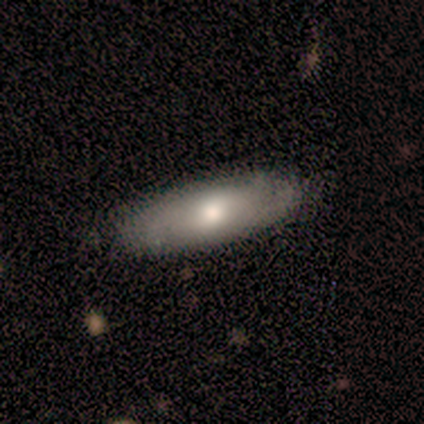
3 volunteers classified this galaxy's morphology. Volunteers were most divided on "merging" (2-way tie): none: 50%, minor disturbance: 50%, major disturbance: 0%, merger: 0%. More confident: how rounded — in between (100%); smooth or featured — smooth (67%).